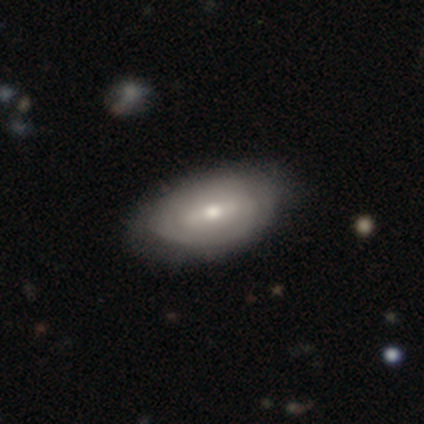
Smooth or featured? smooth (50%)
How rounded? in between (100%)
Merging? none (44%)